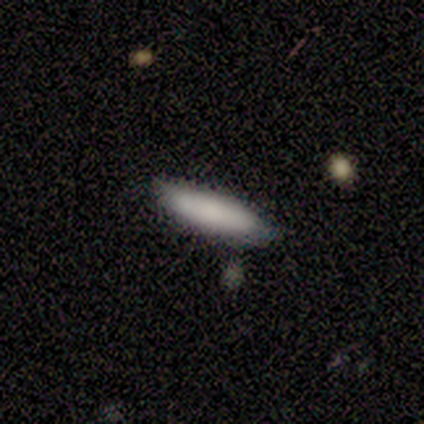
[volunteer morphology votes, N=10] Smooth or featured?
  - smooth: 90% *
  - star or artifact: 10%
  - featured or disk: 0%
How rounded?
  - in between: 56% *
  - cigar-shaped: 44%
  - round: 0%
Merging?
  - none: 67% *
  - minor disturbance: 33%
  - major disturbance: 0%
  - merger: 0%